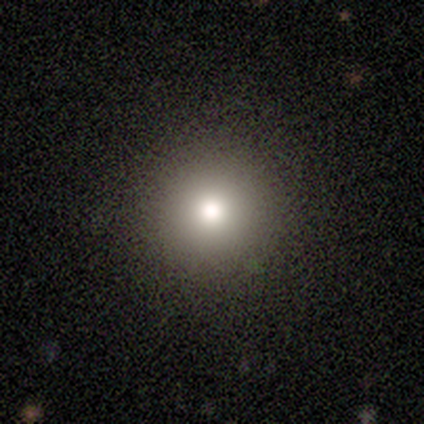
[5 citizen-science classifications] This appears to be a smooth galaxy with no disk features (80%) that is round (100%). Merging: none (100%).